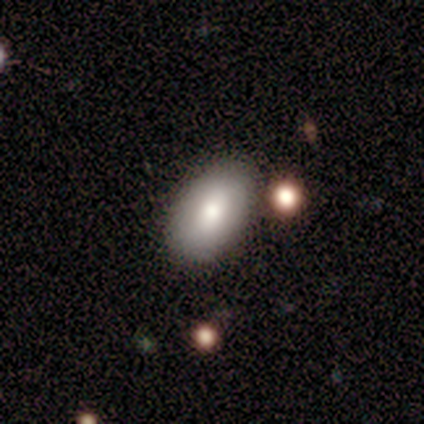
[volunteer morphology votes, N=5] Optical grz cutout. It shows a smooth galaxy with no disk features (80%) that is in between round and cigar-shaped (100%). Merging: none (80%).